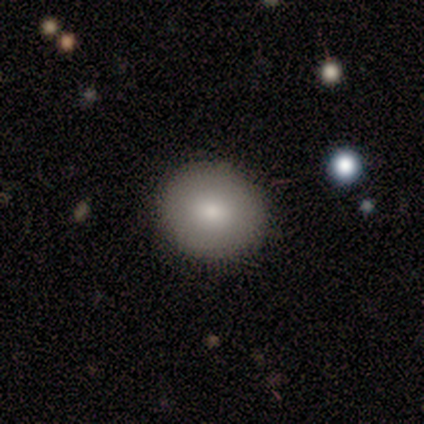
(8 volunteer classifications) This appears to be a smooth galaxy with no disk features (100%) that is round (75%). Merging: none (88%).